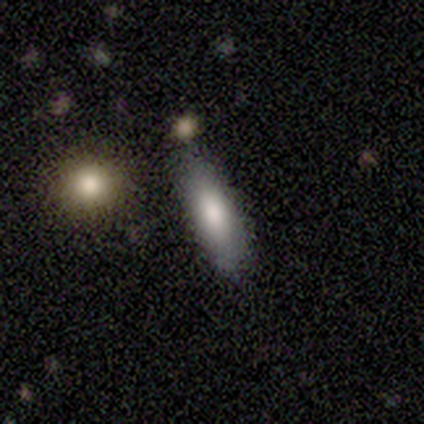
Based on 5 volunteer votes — Morphology: type=smooth (80%); roundness=in between (75%); merging=none (75%).